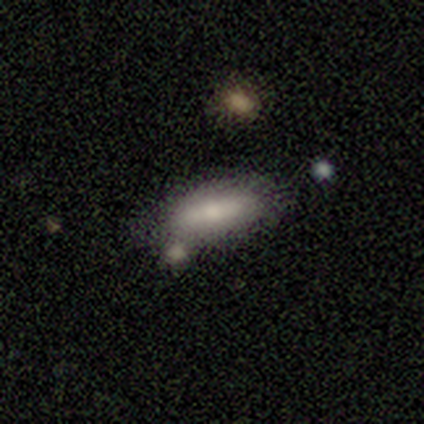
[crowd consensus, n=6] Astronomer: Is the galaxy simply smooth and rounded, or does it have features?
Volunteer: smooth — 50% (runner-up: featured or disk, 33%).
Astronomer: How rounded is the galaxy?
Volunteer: in between — 67%.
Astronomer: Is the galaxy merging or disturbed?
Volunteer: none — 80%.